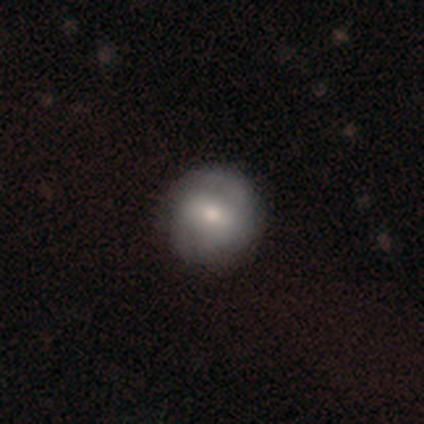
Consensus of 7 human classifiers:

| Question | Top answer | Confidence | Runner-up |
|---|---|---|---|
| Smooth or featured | featured or disk | 71% | smooth (29%) |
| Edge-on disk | no | 100% | — |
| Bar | strong | 40% | tied: weak (40%) |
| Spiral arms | yes | 80% | no (20%) |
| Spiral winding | medium | 75% | tight (25%) |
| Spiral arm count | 2 | 100% | — |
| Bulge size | small | 60% | moderate (40%) |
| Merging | none | 86% | major disturbance (14%) |